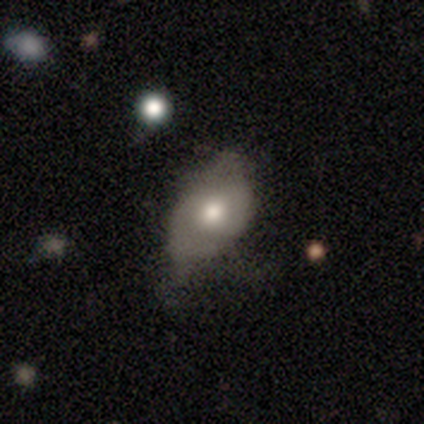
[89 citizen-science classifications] Q: Smooth or featured?
A: smooth (56%); runner-up: featured or disk (40%)
Q: How rounded?
A: in between (90%); runner-up: round (6%)
Q: Merging?
A: minor disturbance (55%); runner-up: none (29%)